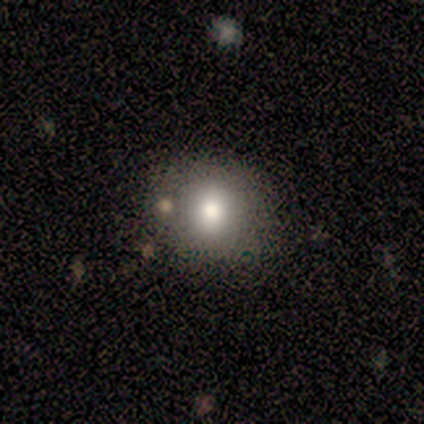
Smooth or featured: smooth — 60% (featured or disk — 20%)
How rounded: round — 67% (in between — 33%)
Merging: none — 100%